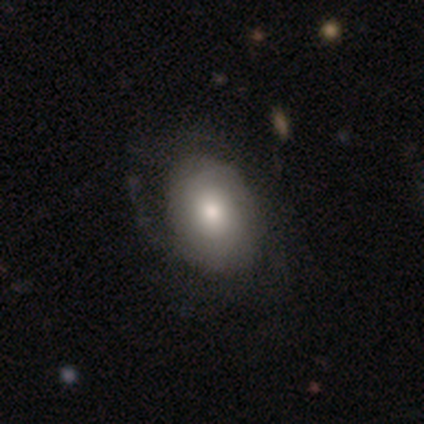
Overall: smooth (59%; featured or disk 36%). How rounded: in between (70%; round 30%). Merging: none (46%; major disturbance 22%).